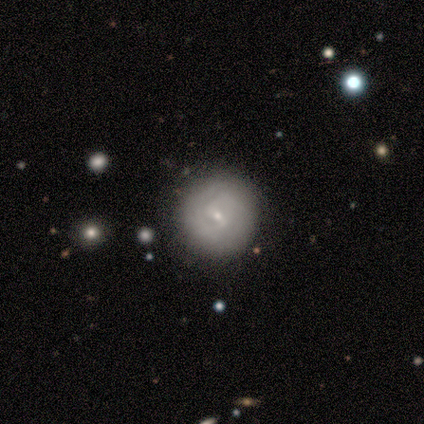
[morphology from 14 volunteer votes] Smooth or featured: featured or disk — 79% (smooth — 21%)
Edge-on disk: no — 100%
Bar: weak — 45% (no — 36%)
Spiral arms: yes — 91% (no — 9%)
Spiral winding: tight — 70% (medium — 20%)
Spiral arm count: 2 — 50% (can't tell — 30%)
Bulge size: small — 82% (dominant — 9%)
Merging: none — 79% (minor disturbance — 21%)